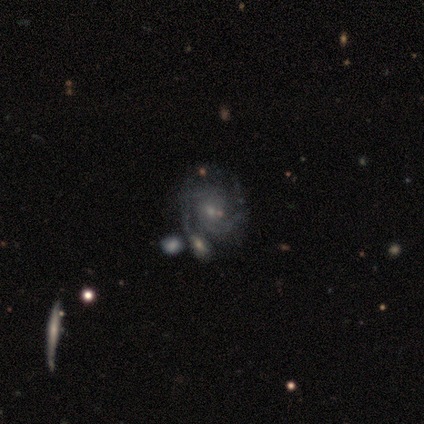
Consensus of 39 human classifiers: Morphology: type=featured or disk (90%); edge-on=no (100%); bar=no (83%); spiral arms=yes (91%); winding=medium (47%); arm count=2 (59%); bulge=small (71%); merging=merger (33%).